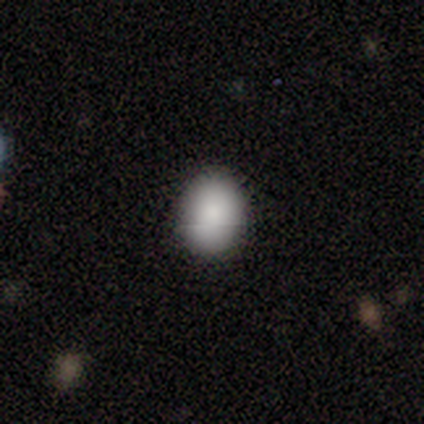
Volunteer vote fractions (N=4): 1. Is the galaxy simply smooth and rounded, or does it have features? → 100% smooth, 0% featured or disk, 0% star or artifact.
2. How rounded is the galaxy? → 75% round, 25% in between, 0% cigar-shaped.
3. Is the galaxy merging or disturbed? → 75% none, 25% minor disturbance, 0% major disturbance, 0% merger.